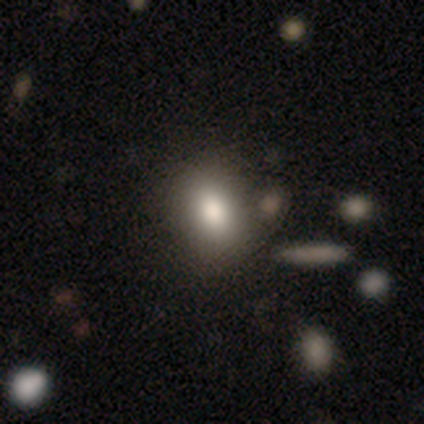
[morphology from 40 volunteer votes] Smooth or featured?
  - smooth: 90% *
  - featured or disk: 8%
  - star or artifact: 2%
How rounded?
  - in between: 64% *
  - round: 36%
  - cigar-shaped: 0%
Merging?
  - none: 46% *
  - merger: 15%
  - minor disturbance: 5%
  - major disturbance: 0%